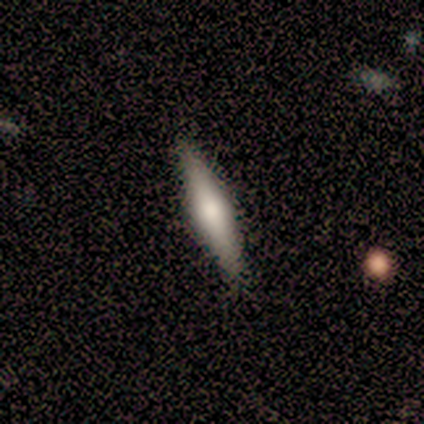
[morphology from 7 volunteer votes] This is possibly a featured or disk galaxy (57%). It is clearly viewed edge-on (100%). Edge-on bulge: clearly rounded (100%). Merging: clearly none (86%).